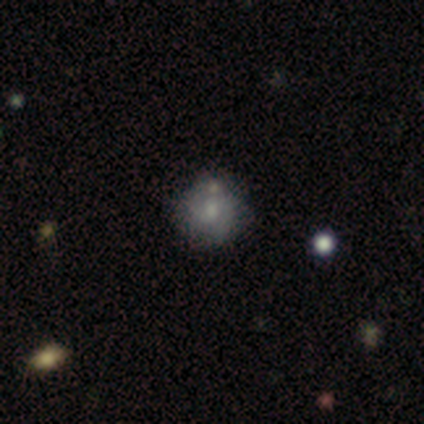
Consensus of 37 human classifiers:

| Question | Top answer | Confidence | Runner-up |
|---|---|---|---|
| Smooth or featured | featured or disk | 51% | smooth (41%) |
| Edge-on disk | no | 100% | — |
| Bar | no | 47% | weak (37%) |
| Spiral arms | yes | 79% | no (21%) |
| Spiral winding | medium | 47% | tight (40%) |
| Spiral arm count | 2 | 73% | can't tell (27%) |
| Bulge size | moderate | 37% | large (26%) |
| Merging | none | 71% | minor disturbance (12%) |